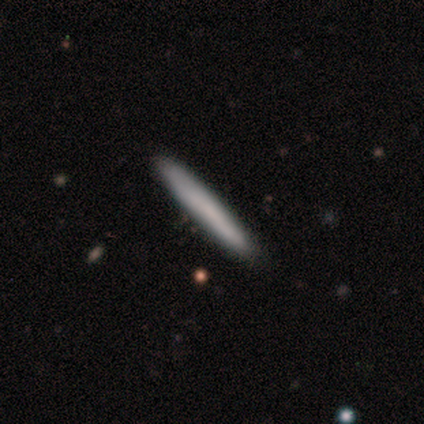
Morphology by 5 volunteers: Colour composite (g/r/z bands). It shows a smooth galaxy with no disk features (100%) that is cigar-shaped (100%). Merging: none (100%).